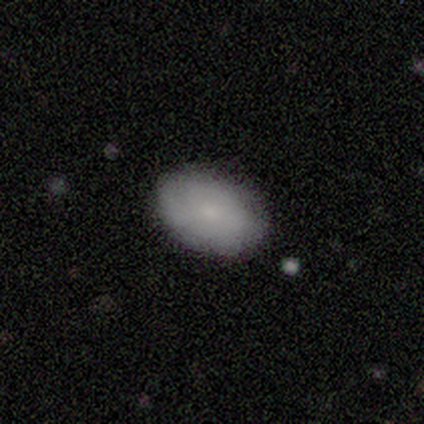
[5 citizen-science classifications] smooth_or_featured: smooth (p=0.80) [alt: featured or disk p=0.20]
how_rounded: in between (p=0.75) [alt: round p=0.25]
merging: none (p=0.80) [alt: merger p=0.20]